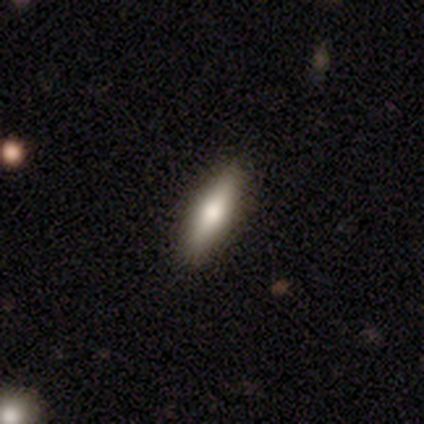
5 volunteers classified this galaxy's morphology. Overall: smooth (80%). How rounded: in between (50%, tied with cigar-shaped). Merging: none (80%).